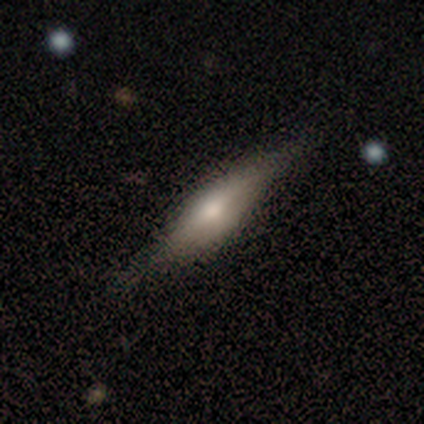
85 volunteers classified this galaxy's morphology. A featured or disk galaxy (51%) viewed edge-on (95%) with a rounded central bulge (83%). Merging: none (75%).